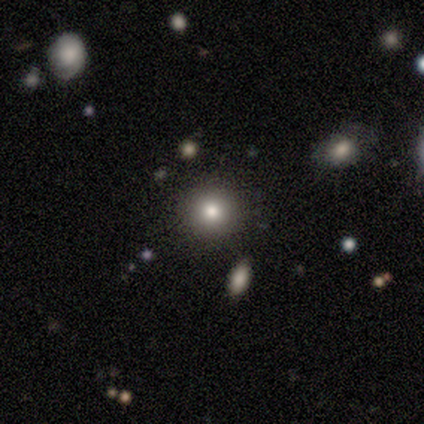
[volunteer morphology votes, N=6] type=smooth (50%, tied with star or artifact); roundness=round (100%); merging=none (100%).